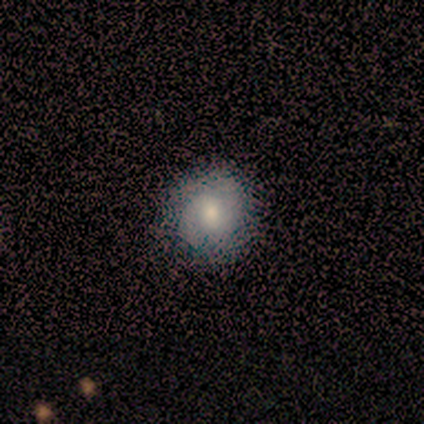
smooth-or-featured: smooth: 50% (tied) | featured or disk: 50% (tied) | star or artifact: 0%
  how-rounded: round: 67% | in between: 33% | cigar-shaped: 0%
  merging: none: 83% | minor disturbance: 17% | major disturbance: 0% | merger: 0%